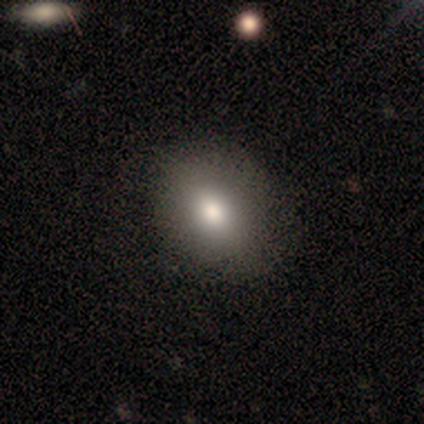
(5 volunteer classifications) This appears to be a smooth galaxy with no disk features (100%) that is round (80%). Merging: none (100%).